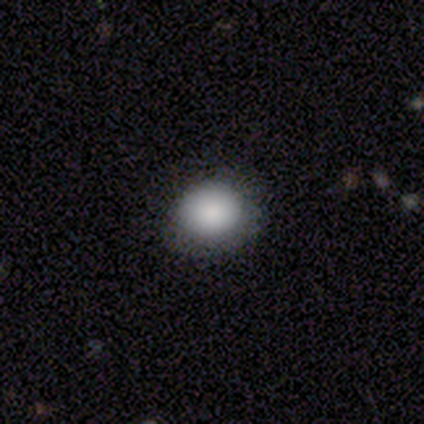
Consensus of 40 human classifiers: Overall: smooth (82%). How rounded: round (79%). Merging: none (86%).